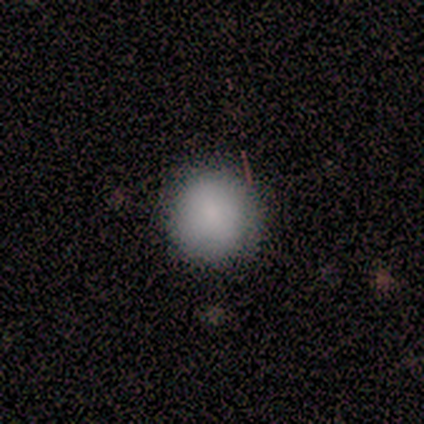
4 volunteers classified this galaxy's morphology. Smooth or featured?
  - smooth: 100% *
  - featured or disk: 0%
  - star or artifact: 0%
How rounded?
  - round: 100% *
  - in between: 0%
  - cigar-shaped: 0%
Merging?
  - none: 100% *
  - minor disturbance: 0%
  - major disturbance: 0%
  - merger: 0%